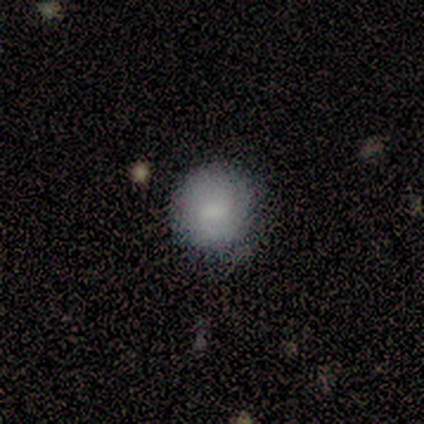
Morphology: type=smooth (60%); roundness=round (100%); merging=none (80%).